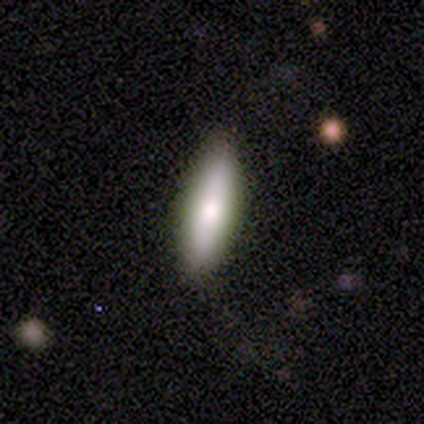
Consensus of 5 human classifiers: Smooth or featured: smooth — 80% (featured or disk — 20%)
How rounded: in between — 50% (tied with cigar-shaped — 50%)
Merging: none — 80% (minor disturbance — 20%)